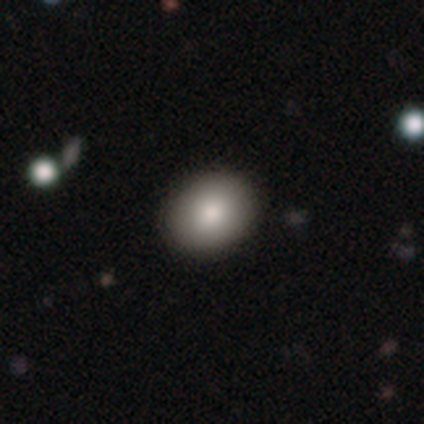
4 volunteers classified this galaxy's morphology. Smooth or featured? 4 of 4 (100%) said smooth. How rounded? 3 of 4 (75%) said in between. Merging? 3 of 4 (75%) said none.